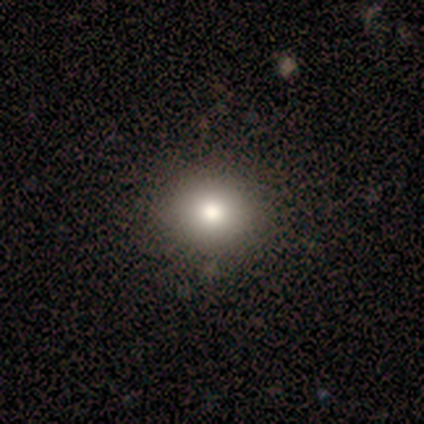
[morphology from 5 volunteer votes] smooth-or-featured: smooth: 80% | featured or disk: 20% | star or artifact: 0%
  how-rounded: round: 100% | in between: 0% | cigar-shaped: 0%
  merging: none: 100% | minor disturbance: 0% | major disturbance: 0% | merger: 0%